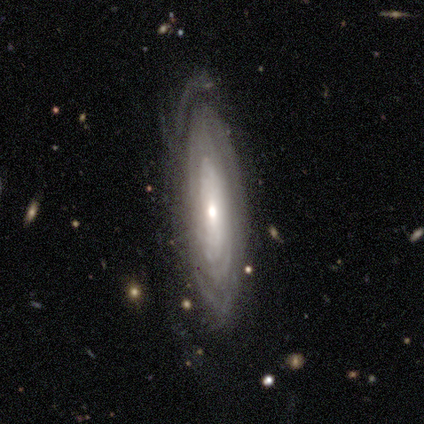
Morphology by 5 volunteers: Overall: featured or disk (80%). Edge-on disk: no (100%). Bar: no (75%). Spiral arms: yes (50%, tied with no). Spiral arm count: more than 4 (50%, tied with can't tell). Spiral winding: tight (100%). Bulge size: moderate (50%; large 25%). Merging: none (50%, tied with minor disturbance).